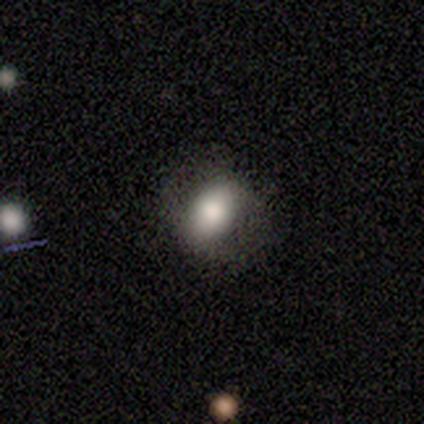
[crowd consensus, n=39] This is likely a smooth galaxy (67%). How rounded: likely in between (69%). Merging: likely none (70%).